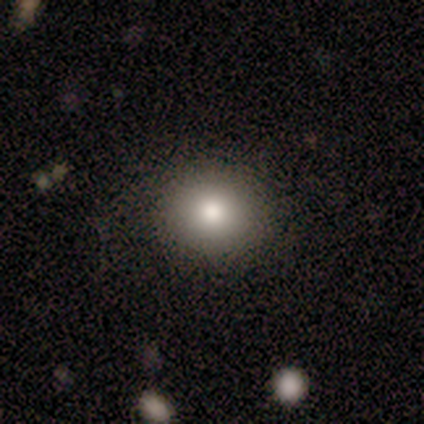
Smooth or featured? smooth (67%)
How rounded? round (100%)
Merging? none (100%)